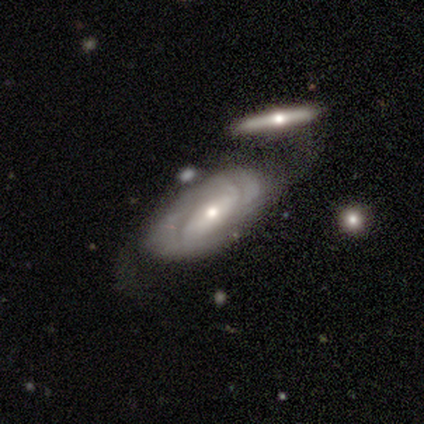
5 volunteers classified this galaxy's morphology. Overall: featured or disk (80%). Edge-on disk: no (100%). Bar: no (75%). Spiral arms: yes (75%). Spiral arm count: 2 (33%, tied with 3 and can't tell). Spiral winding: tight (100%). Bulge size: moderate (75%). Merging: none (40%, tied with minor disturbance).